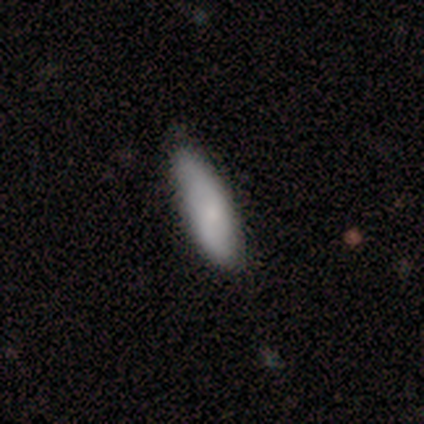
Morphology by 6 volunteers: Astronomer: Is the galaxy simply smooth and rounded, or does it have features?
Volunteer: smooth — 83%.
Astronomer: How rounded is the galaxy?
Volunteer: in between — 60% (runner-up: cigar-shaped, 40%).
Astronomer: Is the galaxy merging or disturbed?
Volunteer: none — 40%, tied with minor disturbance at 40%.